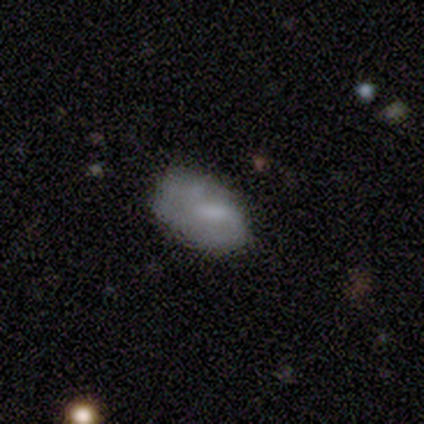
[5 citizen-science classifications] This is clearly a featured or disk galaxy (80%). It is clearly not viewed edge-on (100%). Bar: possibly no (50%). Spiral arm pattern: likely yes (75%). Spiral arm count: likely can't tell (67%). Spiral winding: clearly tight (100%). Central bulge: marginally large (25%, tied with moderate, small and none). Merging: clearly none (80%).